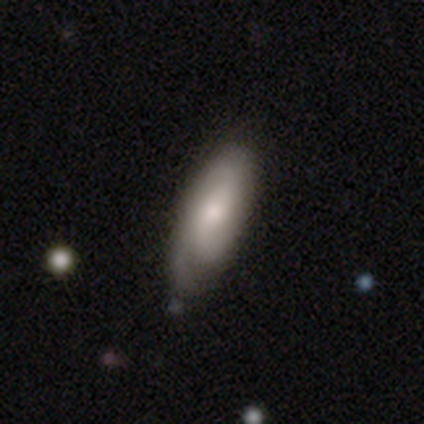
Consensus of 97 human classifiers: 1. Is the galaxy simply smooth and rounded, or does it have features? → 53% smooth, 41% featured or disk, 6% star or artifact.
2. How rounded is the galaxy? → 69% in between, 31% cigar-shaped, 0% round.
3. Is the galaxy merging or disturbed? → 65% none, 30% minor disturbance, 5% major disturbance, 0% merger.